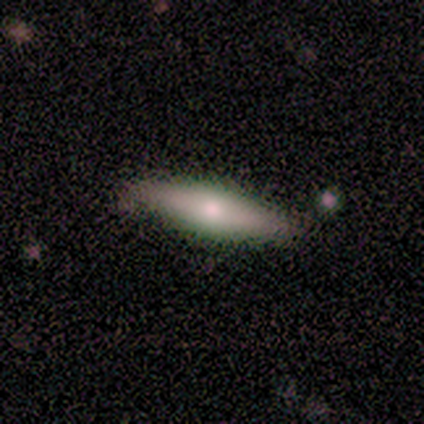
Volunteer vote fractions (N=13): Smooth or featured: smooth — 54% (featured or disk — 46%)
How rounded: cigar-shaped — 57% (in between — 43%)
Merging: none — 85% (minor disturbance — 15%)